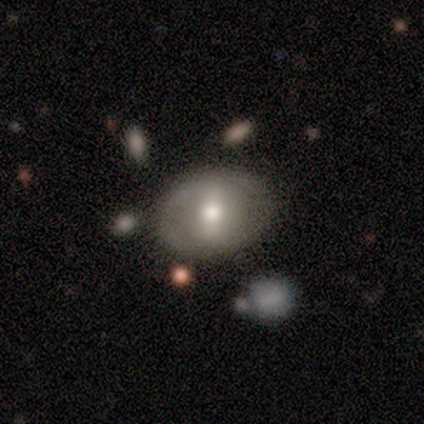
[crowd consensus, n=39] A featured or disk galaxy (59%) with a strong bar (48%), no spiral arms (87%) and a moderate central bulge (78%).

Vote fractions:
- Smooth or featured? featured or disk: 59% / smooth: 38% / star or artifact: 3%
- Edge-on disk? no: 100% / yes: 0%
- Bar? strong: 48% / weak: 30% / no: 22%
- Spiral arms? no: 87% / yes: 13%
- Bulge size? moderate: 78% / small: 13% / large: 9% / dominant: 0% / none: 0%
- Merging? none: 68% / minor disturbance: 18% / merger: 8% / major disturbance: 5%